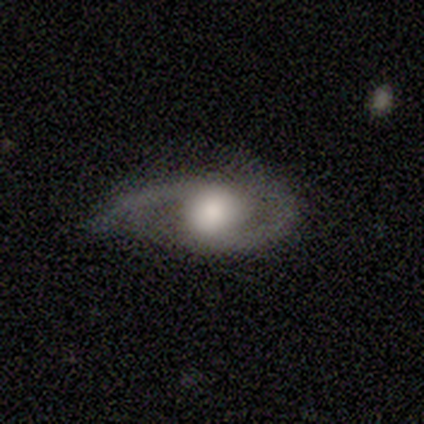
smooth_or_featured: featured or disk (p=0.88) [alt: smooth p=0.12]
disk_edge_on: no (p=0.86) [alt: yes p=0.14]
bar: no (p=0.83) [alt: weak p=0.17]
has_spiral_arms: yes (p=0.67) [alt: no p=0.33]
spiral_winding: medium (p=0.50) [tied with: loose p=0.50]
spiral_arm_count: 2 (p=1.00)
bulge_size: moderate (p=0.50) [alt: large p=0.33]
merging: none (p=0.50) [alt: minor disturbance p=0.38]